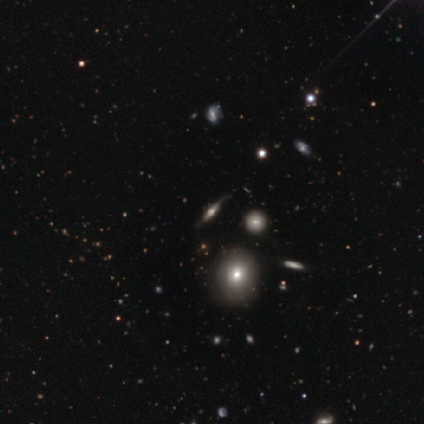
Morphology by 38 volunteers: type=smooth (45%); roundness=round (53%); merging=none (65%).